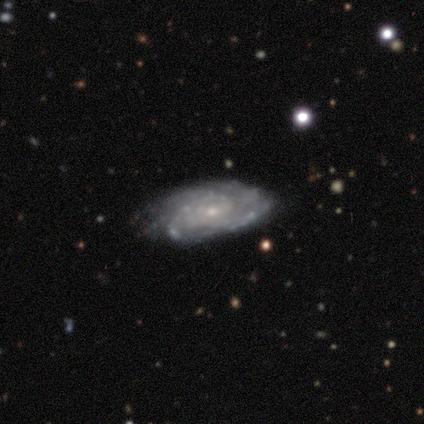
A featured or disk galaxy (100%) with a weak bar (57%), 3 (43%) tight (71%) spiral arms (100%) and a small central bulge (100%). Merging: none (57%).